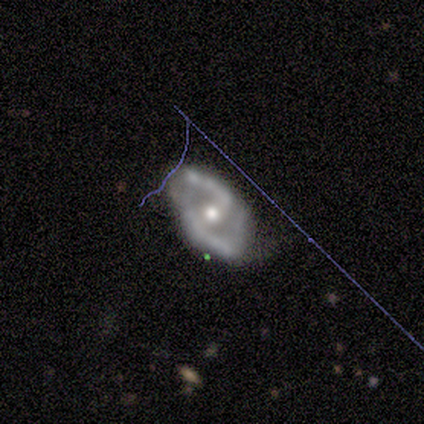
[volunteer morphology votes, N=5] Overall: featured or disk (80%). Edge-on disk: no (100%). Bar: no (50%; strong 25%). Spiral arms: yes (75%). Spiral arm count: 2 (100%). Spiral winding: medium (67%; loose 33%). Bulge size: moderate (75%). Merging: none (75%).